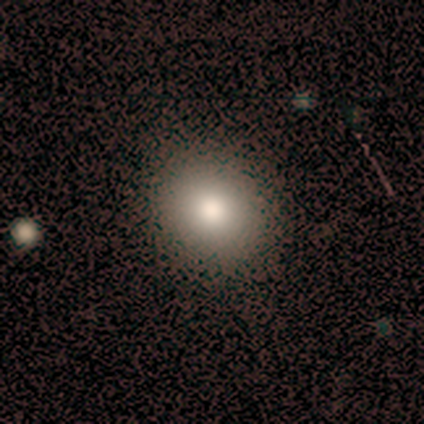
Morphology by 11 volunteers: smooth-or-featured: smooth: 100% | featured or disk: 0% | star or artifact: 0%
  how-rounded: round: 82% | in between: 18% | cigar-shaped: 0%
  merging: none: 100% | minor disturbance: 0% | major disturbance: 0% | merger: 0%